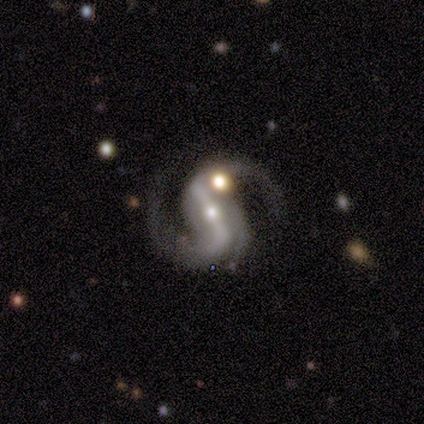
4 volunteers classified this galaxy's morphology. Volunteers were most divided on "spiral winding" (2-way tie): medium: 50%, loose: 50%, tight: 0%; "merging" (2-way tie): none: 50%, minor disturbance: 50%, major disturbance: 0%, merger: 0%. More confident: smooth or featured — featured or disk (100%); edge-on disk — no (100%); bar — strong (100%); spiral arms — yes (100%); spiral arm count — 2 (100%); bulge size — small (75%).